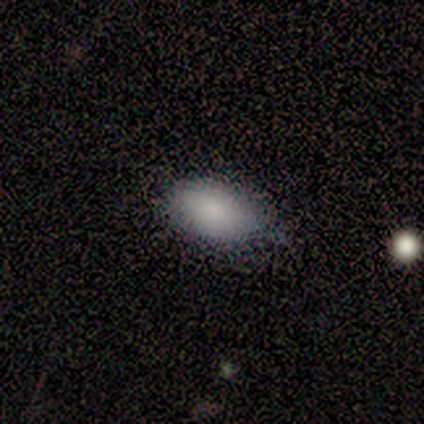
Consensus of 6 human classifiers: This is clearly a smooth galaxy (100%). How rounded: clearly in between (100%). Merging: possibly none (50%, tied with minor disturbance).